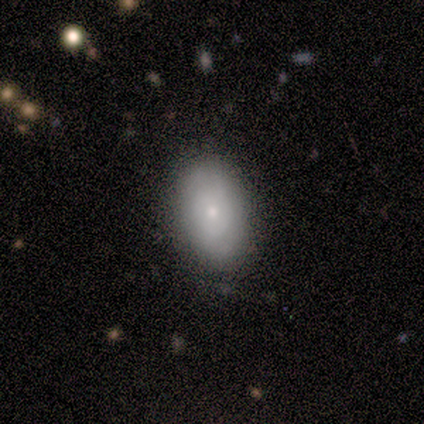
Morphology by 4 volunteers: This is likely a featured or disk galaxy (75%). It is likely not viewed edge-on (67%). Bar: clearly no (100%). Spiral arm pattern: clearly no (100%). Central bulge: clearly small (100%). Merging: clearly none (100%).